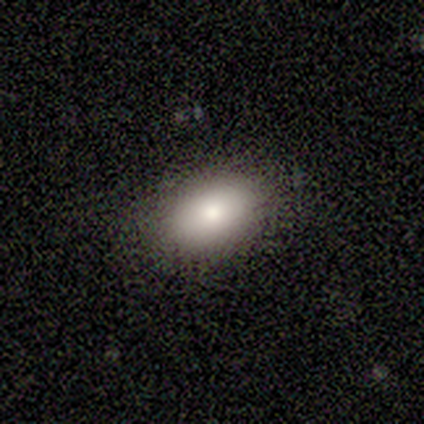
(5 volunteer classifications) smooth-or-featured: smooth: 80% | featured or disk: 20% | star or artifact: 0%
  how-rounded: in between: 100% | round: 0% | cigar-shaped: 0%
  merging: none: 80% | minor disturbance: 20% | major disturbance: 0% | merger: 0%